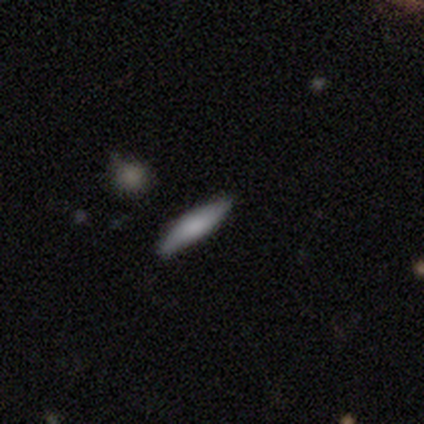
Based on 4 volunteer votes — Volunteers were most divided on "smooth or featured": smooth: 50%, featured or disk: 25%, star or artifact: 25%. More confident: how rounded — cigar-shaped (100%); merging — none (67%).